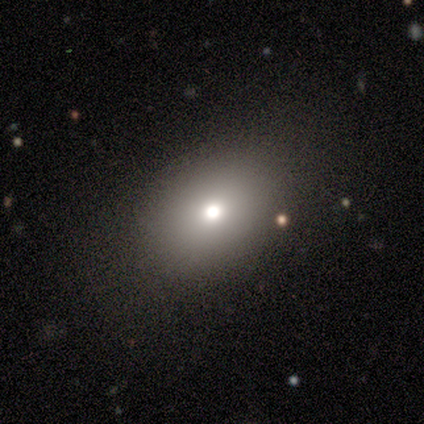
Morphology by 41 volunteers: A smooth galaxy with no disk features (83%) that is in between round and cigar-shaped (82%). Merging: none (82%).